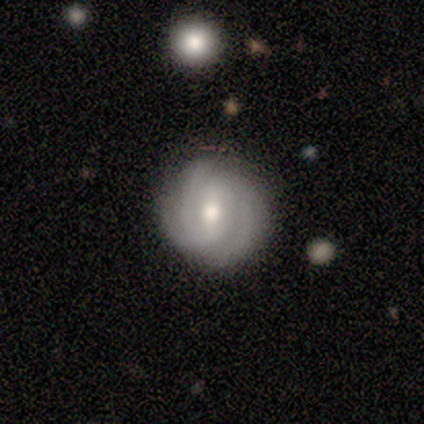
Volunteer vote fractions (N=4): smooth-or-featured: featured or disk: 50% | smooth: 25% | star or artifact: 25%
  disk-edge-on: no: 100% | yes: 0%
    bar: weak: 100% | strong: 0% | no: 0%
    has-spiral-arms: yes: 100% | no: 0%
      spiral-winding: tight: 50% (tied) | medium: 50% (tied) | loose: 0%
      spiral-arm-count: 2: 50% (tied) | 3: 50% (tied) | 1: 0% | 4: 0% | more than 4: 0% | can't tell: 0%
    bulge-size: moderate: 50% (tied) | small: 50% (tied) | dominant: 0% | large: 0% | none: 0%
  merging: none: 100% | minor disturbance: 0% | major disturbance: 0% | merger: 0%